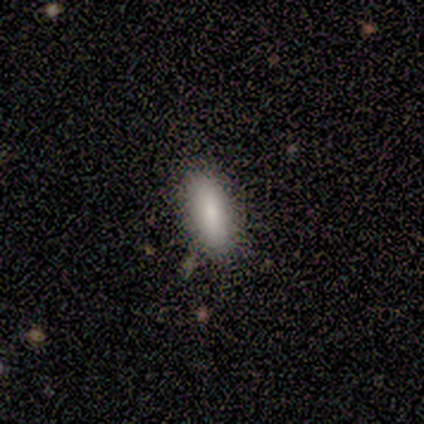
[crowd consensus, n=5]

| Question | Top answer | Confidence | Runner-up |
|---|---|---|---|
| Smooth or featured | smooth | 80% | featured or disk (20%) |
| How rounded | in between | 50% | tied: cigar-shaped (50%) |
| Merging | none | 60% | minor disturbance (40%) |